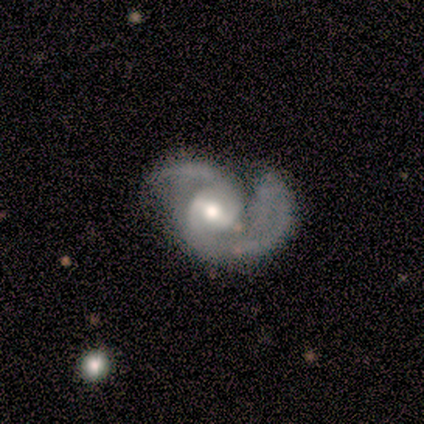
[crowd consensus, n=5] This is clearly a featured or disk galaxy (100%). It is clearly not viewed edge-on (100%). Bar: marginally weak (40%, tied with no). Spiral arm pattern: clearly yes (100%). Spiral arm count: clearly 2 (100%). Spiral winding: clearly medium (80%). Central bulge: clearly moderate (80%). Merging: marginally none (40%, tied with minor disturbance).